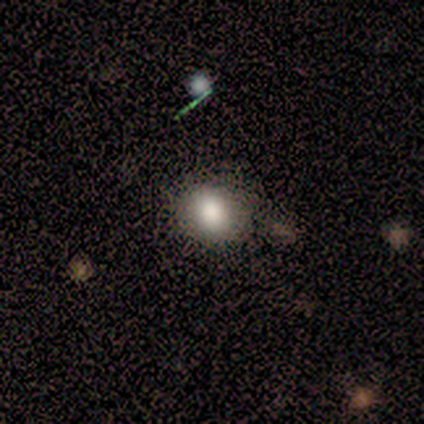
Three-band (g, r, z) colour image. It shows a smooth galaxy with no disk features (80%) that is round (75%). Merging: none (50%, tied with major disturbance).